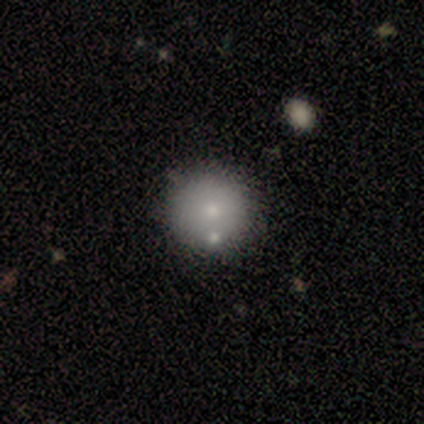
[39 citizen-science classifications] Volunteers were most divided on "smooth or featured": smooth: 64%, featured or disk: 21%, star or artifact: 15%. More confident: how rounded — round (92%); merging — none (76%).